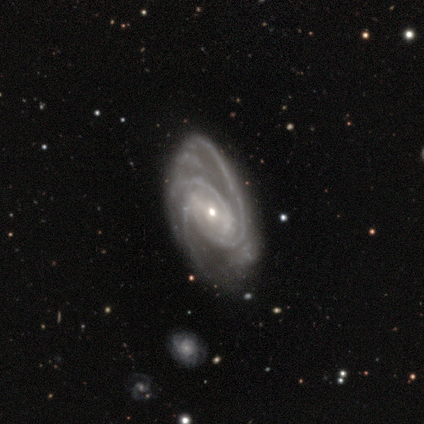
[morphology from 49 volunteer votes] This appears to be a featured or disk galaxy (94%) with a weak bar (46%), 3 (46%) medium (50%) spiral arms (100%) and a small central bulge (67%). Merging: none (38%).